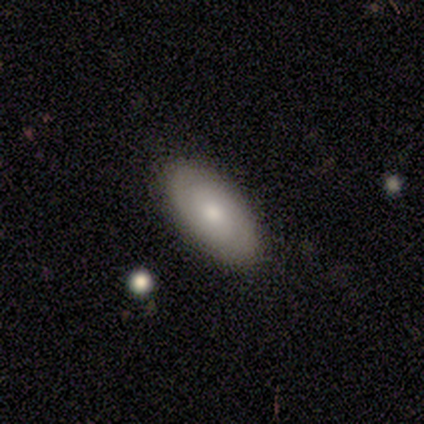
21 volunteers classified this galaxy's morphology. Smooth or featured? smooth (48%, tied with featured or disk)
How rounded? in between (90%)
Merging? none (85%)